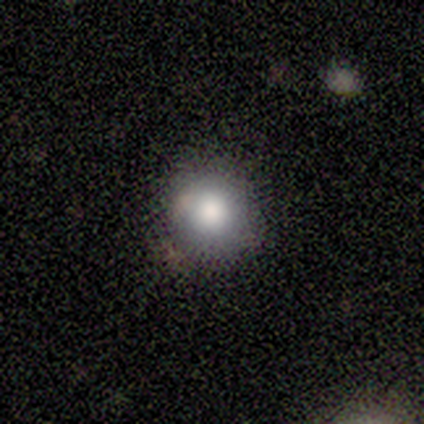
Volunteers were most divided on "merging": none: 73%, minor disturbance: 20%, merger: 7%, major disturbance: 0%. More confident: smooth or featured — smooth (94%); how rounded — round (93%).